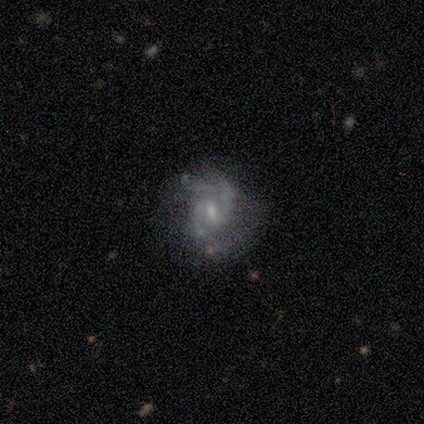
Smooth or featured? featured or disk (75%)
Edge-on disk? no (100%)
Bar? weak (100%)
Spiral arms? yes (100%)
Spiral winding? medium (67%)
Spiral arm count? 2 (100%)
Bulge size? small (67%)
Merging? none (100%)